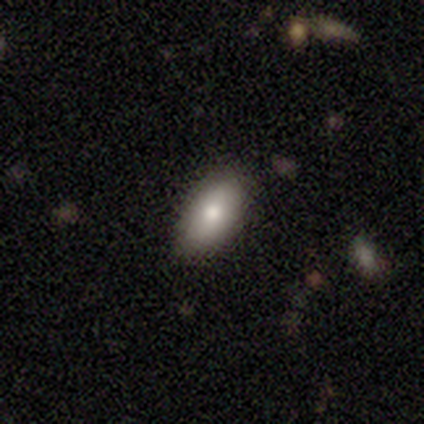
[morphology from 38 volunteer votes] type=smooth (84%); roundness=in between (97%); merging=none (89%).